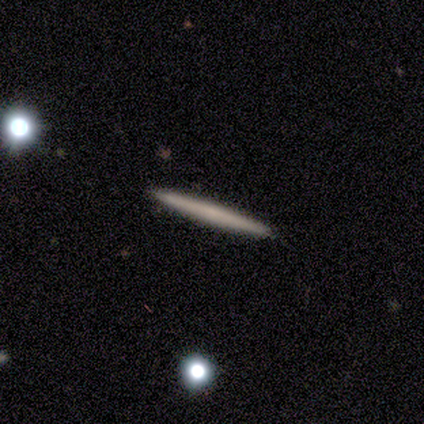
smooth-or-featured: smooth: 60% | featured or disk: 40% | star or artifact: 0%
  how-rounded: cigar-shaped: 100% | round: 0% | in between: 0%
  merging: none: 100% | minor disturbance: 0% | major disturbance: 0% | merger: 0%